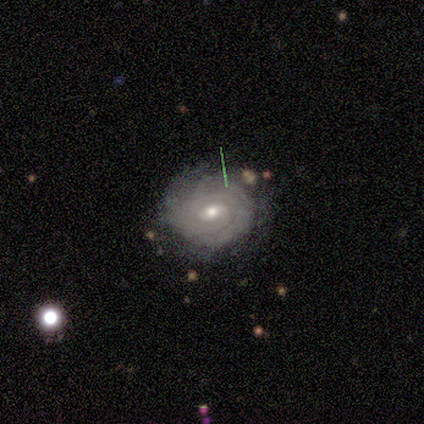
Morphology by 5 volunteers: type=featured or disk (80%); edge-on=no (100%); bar=weak (75%); spiral arms=yes (100%); winding=tight (75%); arm count=can't tell (75%); bulge=moderate (50%, tied with small); merging=none (100%).